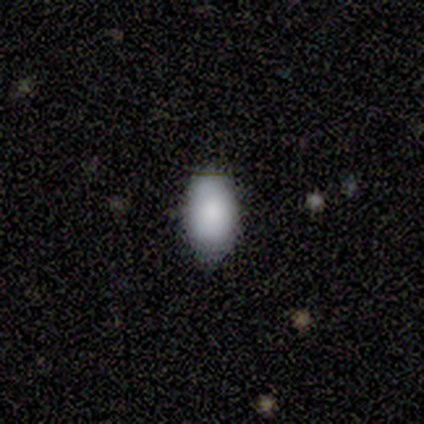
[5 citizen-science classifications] Smooth or featured? 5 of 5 (100%) said smooth. How rounded? 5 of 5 (100%) said in between. Merging? 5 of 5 (100%) said none.